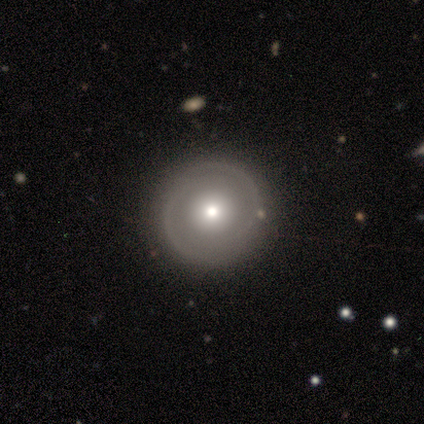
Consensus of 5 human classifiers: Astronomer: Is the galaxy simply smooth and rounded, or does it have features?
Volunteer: smooth — 60% (runner-up: featured or disk, 40%).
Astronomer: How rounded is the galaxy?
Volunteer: round — 67%.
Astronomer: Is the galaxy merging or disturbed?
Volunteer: none — 80%.